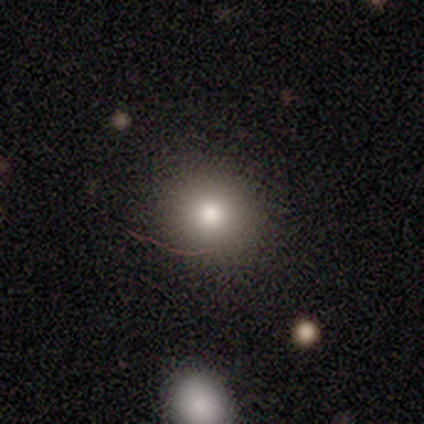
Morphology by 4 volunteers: Overall: smooth (50%; featured or disk 25%). How rounded: round (50%, tied with in between). Merging: none (100%).